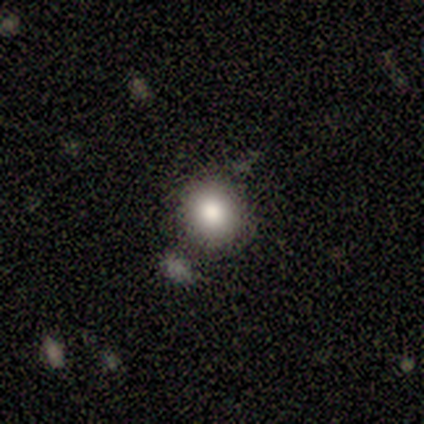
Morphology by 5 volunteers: Smooth or featured: smooth — 80% (star or artifact — 20%)
How rounded: round — 100%
Merging: none — 100%